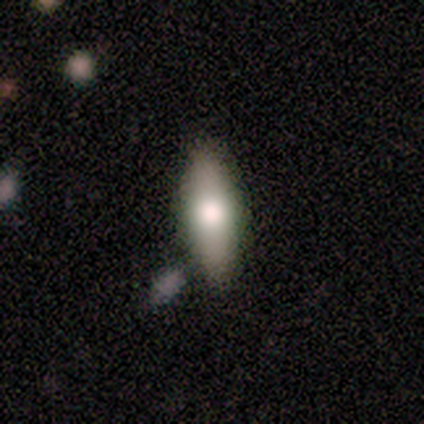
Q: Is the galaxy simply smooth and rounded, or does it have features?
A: featured or disk — 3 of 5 (60%).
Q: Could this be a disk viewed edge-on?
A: yes — 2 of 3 (67%).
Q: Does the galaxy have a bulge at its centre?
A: rounded — 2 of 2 (100%).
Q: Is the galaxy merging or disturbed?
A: none — 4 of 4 (100%).